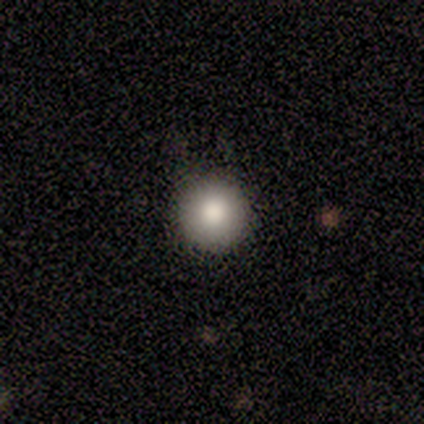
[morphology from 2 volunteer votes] A smooth galaxy with no disk features (100%) that is round (100%). Merging: none (100%).